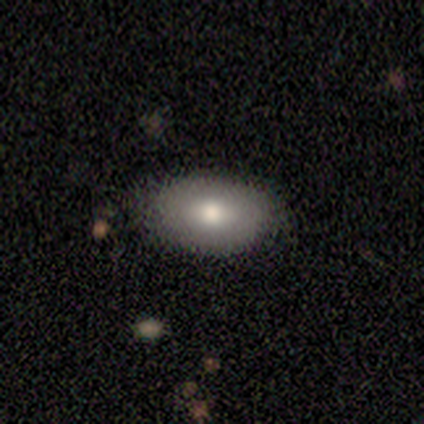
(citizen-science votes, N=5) smooth_or_featured: smooth (p=0.80) [alt: featured or disk p=0.20]
how_rounded: in between (p=1.00)
merging: none (p=0.80) [alt: minor disturbance p=0.20]